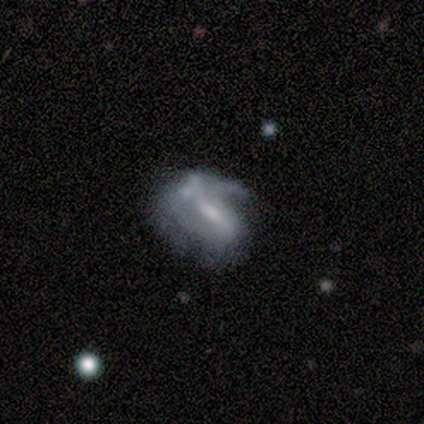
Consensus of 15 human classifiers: smooth_or_featured: featured or disk (p=0.67) [alt: smooth p=0.33]
disk_edge_on: no (p=0.80) [alt: yes p=0.20]
bar: weak (p=0.50) [alt: strong p=0.25]
has_spiral_arms: yes (p=0.62) [alt: no p=0.38]
spiral_winding: medium (p=0.80) [alt: loose p=0.20]
spiral_arm_count: 1 (p=0.60) [alt: 2 p=0.20]
bulge_size: small (p=0.38) [alt: moderate p=0.25]
merging: none (p=0.40) [alt: minor disturbance p=0.27]